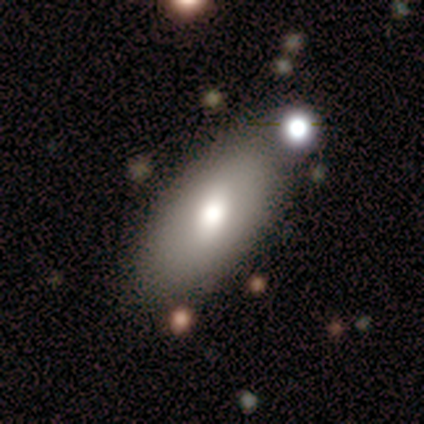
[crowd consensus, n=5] Morphology: type=smooth (80%); roundness=in between (100%); merging=none (100%).